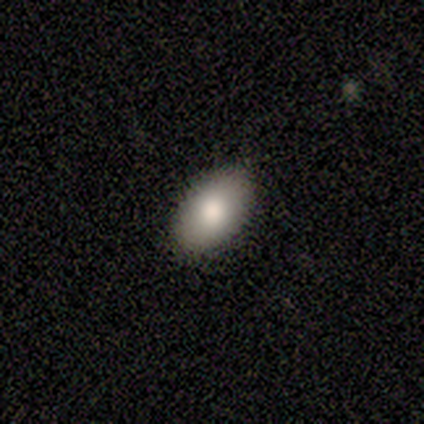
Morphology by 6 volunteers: smooth-or-featured: smooth: 83% | featured or disk: 17% | star or artifact: 0%
  how-rounded: in between: 100% | round: 0% | cigar-shaped: 0%
  merging: none: 83% | minor disturbance: 17% | major disturbance: 0% | merger: 0%